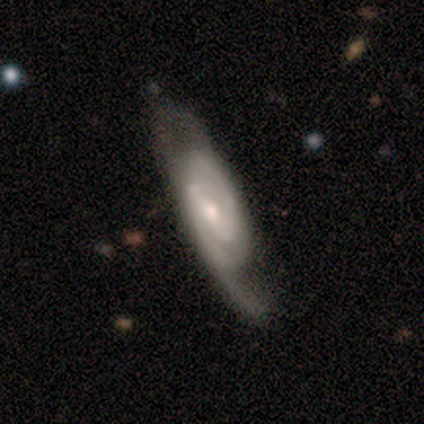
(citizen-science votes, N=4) This is clearly a featured or disk galaxy (100%). It is likely not viewed edge-on (75%). Bar: likely strong (67%). Spiral arm pattern: clearly yes (100%). Spiral arm count: clearly 2 (100%). Spiral winding: likely medium (67%). Central bulge: likely moderate (67%). Merging: possibly none (50%).